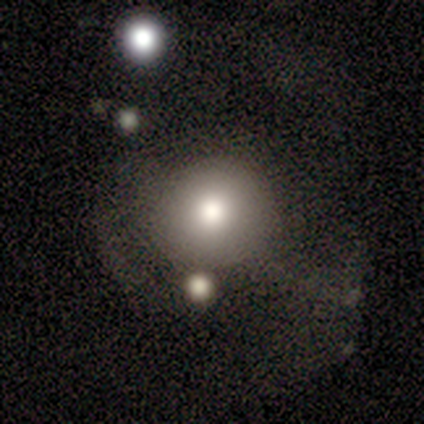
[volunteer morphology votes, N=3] smooth 67%, featured or disk 33%, star or artifact 0%. Down the decision tree: how rounded — round (100%); merging — none (33%, tied with major disturbance and merger).